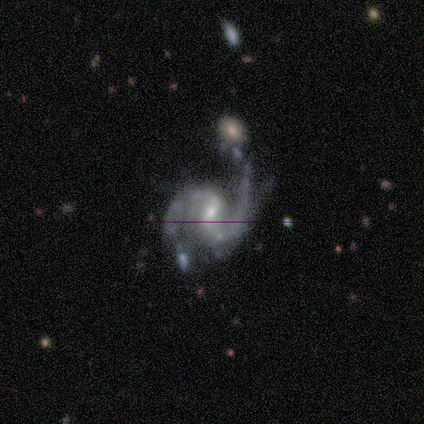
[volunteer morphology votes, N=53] This is clearly a featured or disk galaxy (92%). It is clearly not viewed edge-on (100%). Bar: possibly weak (51%). Spiral arm pattern: clearly yes (96%). Spiral arm count: clearly 2 (85%). Spiral winding: likely medium (72%). Central bulge: likely small (65%). Merging: marginally none (45%).